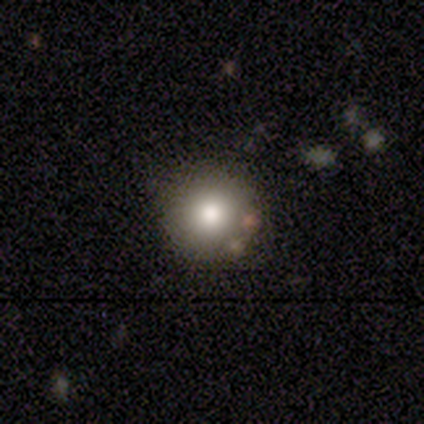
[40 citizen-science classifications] Volunteers were most divided on "smooth or featured": smooth: 82%, star or artifact: 10%, featured or disk: 8%. More confident: how rounded — round (94%); merging — none (86%).